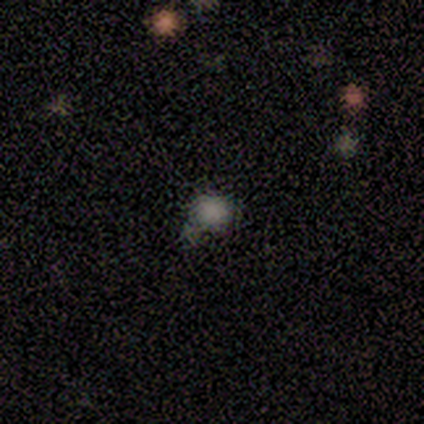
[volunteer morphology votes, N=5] smooth 80%, star or artifact 20%, featured or disk 0%. Down the decision tree: how rounded — round (100%); merging — minor disturbance (75%).